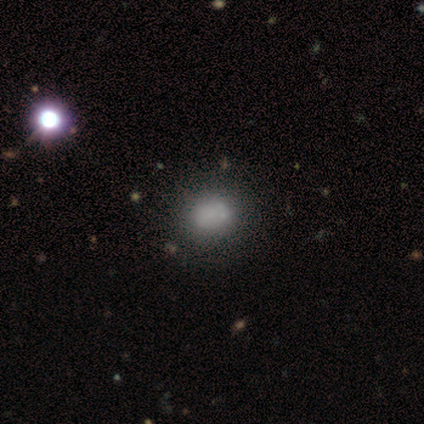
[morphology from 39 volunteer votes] Smooth or featured? 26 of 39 (67%) said smooth. How rounded? 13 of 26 (50%, tied with in between) said round. Merging? 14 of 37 (38%) said none.